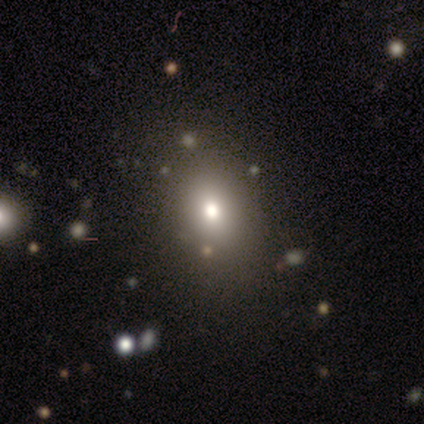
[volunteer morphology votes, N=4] This is clearly a smooth galaxy (100%). How rounded: clearly in between (100%). Merging: likely none (75%).